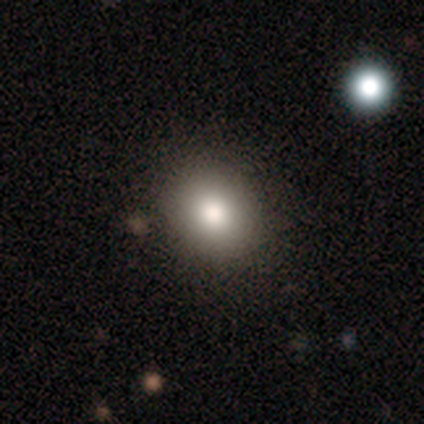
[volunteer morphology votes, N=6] Smooth or featured? smooth (83%)
How rounded? round (80%)
Merging? none (100%)